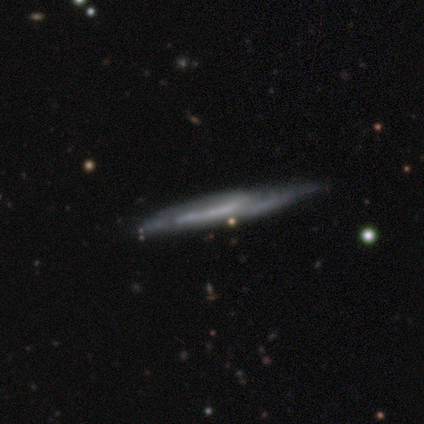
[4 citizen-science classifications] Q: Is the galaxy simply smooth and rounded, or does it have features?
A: smooth — 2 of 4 (50%, tied with featured or disk).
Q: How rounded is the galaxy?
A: cigar-shaped — 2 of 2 (100%).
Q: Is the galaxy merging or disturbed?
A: none — 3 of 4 (75%).